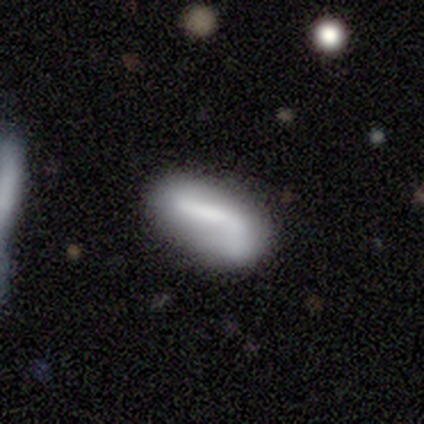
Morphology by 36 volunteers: This is possibly a smooth galaxy (53%). How rounded: clearly in between (84%). Merging: possibly none (48%).